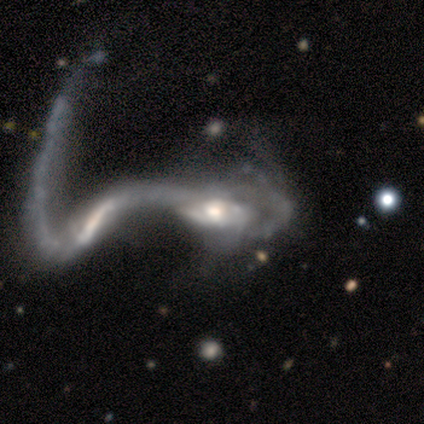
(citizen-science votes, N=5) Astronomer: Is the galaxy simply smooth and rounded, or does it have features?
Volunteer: featured or disk — 100%.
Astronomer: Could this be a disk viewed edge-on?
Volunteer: no — 100%.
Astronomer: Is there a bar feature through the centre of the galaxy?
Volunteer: no — 60%.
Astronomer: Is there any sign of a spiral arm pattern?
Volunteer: no — 100%.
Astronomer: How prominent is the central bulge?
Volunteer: moderate — 60%.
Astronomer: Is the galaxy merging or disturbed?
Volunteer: merger — 60% (runner-up: major disturbance, 40%).